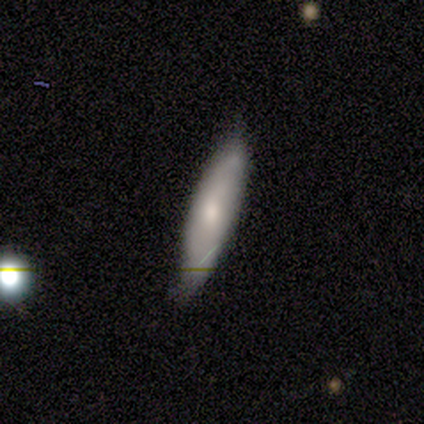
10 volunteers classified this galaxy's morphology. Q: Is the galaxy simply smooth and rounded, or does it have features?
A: smooth — 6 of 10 (60%).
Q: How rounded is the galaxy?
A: cigar-shaped — 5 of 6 (83%).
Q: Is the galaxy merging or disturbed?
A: none — 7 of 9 (78%).